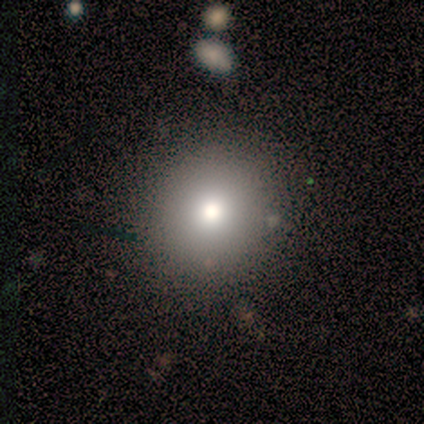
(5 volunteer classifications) Volunteers were most divided on "smooth or featured": smooth: 80%, featured or disk: 20%, star or artifact: 0%. More confident: how rounded — round (100%); merging — none (100%).